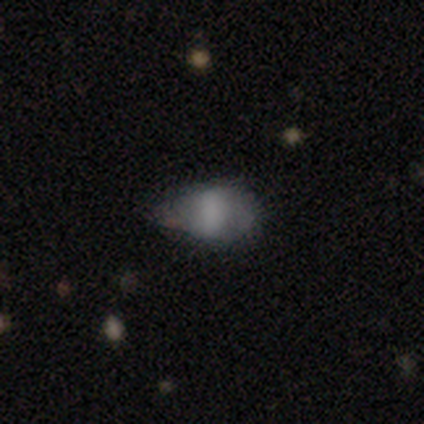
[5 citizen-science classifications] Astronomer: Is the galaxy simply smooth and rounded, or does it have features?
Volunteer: smooth — 40%, tied with featured or disk at 40%.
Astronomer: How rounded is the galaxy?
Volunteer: round — 50%, tied with in between at 50%.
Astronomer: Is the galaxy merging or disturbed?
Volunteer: none — 50%, tied with minor disturbance at 50%.